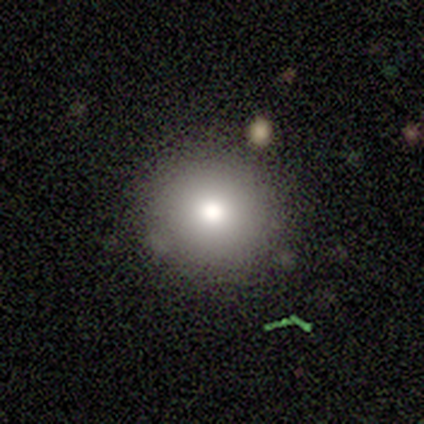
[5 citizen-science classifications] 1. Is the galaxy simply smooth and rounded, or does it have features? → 60% featured or disk, 40% smooth, 0% star or artifact.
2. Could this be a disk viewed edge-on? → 100% no, 0% yes.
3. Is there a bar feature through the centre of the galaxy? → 100% no, 0% strong, 0% weak.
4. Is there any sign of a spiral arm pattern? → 100% no, 0% yes.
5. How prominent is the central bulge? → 100% moderate, 0% dominant, 0% large, 0% small, 0% none.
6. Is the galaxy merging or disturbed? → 100% none, 0% minor disturbance, 0% major disturbance, 0% merger.